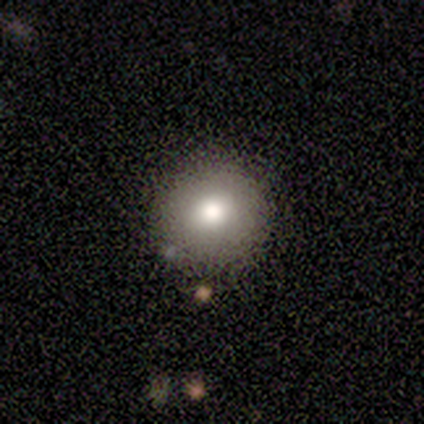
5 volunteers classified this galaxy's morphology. Q: Smooth or featured?
A: smooth (80%); runner-up: featured or disk (20%)
Q: How rounded?
A: round (100%)
Q: Merging?
A: none (100%)